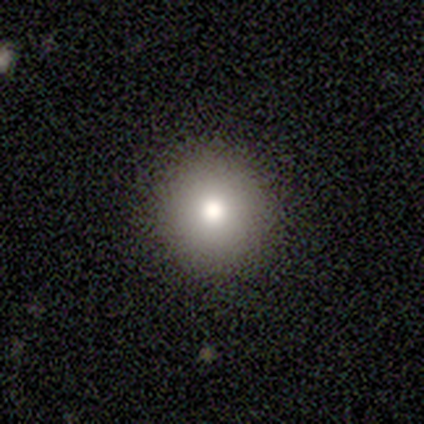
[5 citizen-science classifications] Smooth or featured? smooth (80%)
How rounded? round (100%)
Merging? none (100%)